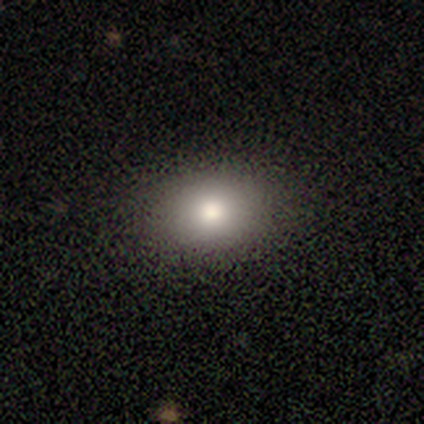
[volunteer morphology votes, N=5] Smooth or featured?
  - smooth: 80% *
  - featured or disk: 20%
  - star or artifact: 0%
How rounded?
  - in between: 75% *
  - round: 25%
  - cigar-shaped: 0%
Merging?
  - none: 100% *
  - minor disturbance: 0%
  - major disturbance: 0%
  - merger: 0%